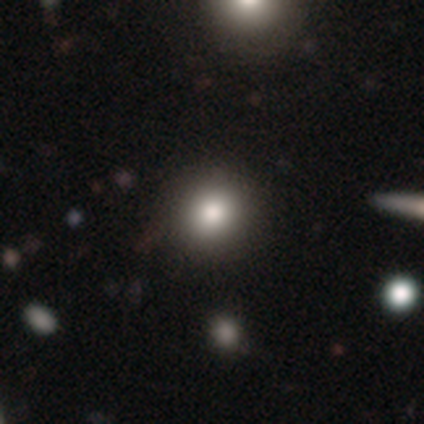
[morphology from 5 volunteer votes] smooth-or-featured: smooth: 100% | featured or disk: 0% | star or artifact: 0%
  how-rounded: round: 100% | in between: 0% | cigar-shaped: 0%
  merging: none: 100% | minor disturbance: 0% | major disturbance: 0% | merger: 0%